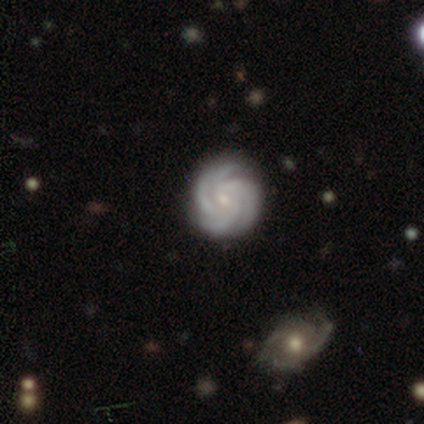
Smooth or featured? 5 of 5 (100%) said featured or disk. Edge-on disk? 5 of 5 (100%) said no. Bar? 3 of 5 (60%) said no. Spiral arms? 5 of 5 (100%) said yes. Spiral winding? 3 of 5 (60%) said tight. Spiral arm count? 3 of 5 (60%) said 3. Bulge size? 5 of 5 (100%) said small. Merging? 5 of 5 (100%) said none.